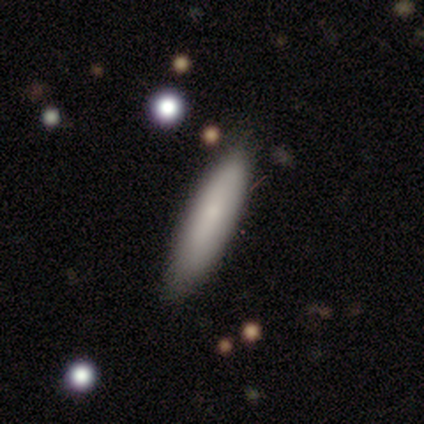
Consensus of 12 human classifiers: Volunteers were most divided on "how rounded": in between: 55%, cigar-shaped: 45%, round: 0%. More confident: smooth or featured — smooth (92%); merging — none (92%).